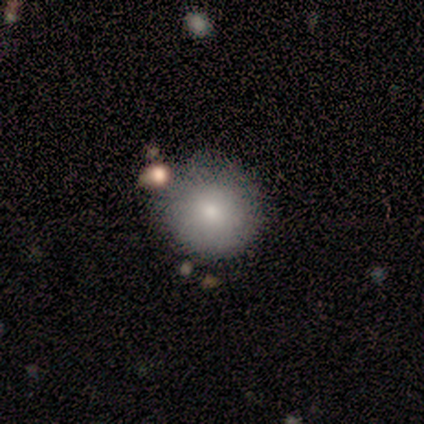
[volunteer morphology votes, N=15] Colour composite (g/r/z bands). It shows a smooth galaxy with no disk features (93%) that is round (100%). Merging: none (73%).